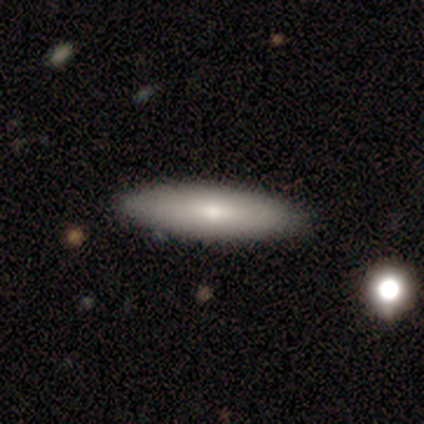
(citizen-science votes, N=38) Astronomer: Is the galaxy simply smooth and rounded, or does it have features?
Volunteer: smooth — 79%.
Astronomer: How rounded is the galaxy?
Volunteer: cigar-shaped — 60% (runner-up: in between, 40%).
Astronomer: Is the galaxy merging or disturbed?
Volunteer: none — 81%.